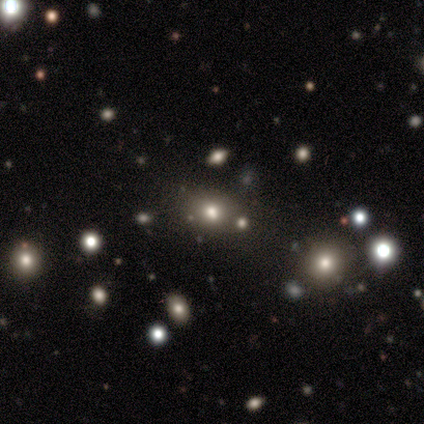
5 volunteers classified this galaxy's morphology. Smooth or featured: star or artifact — 60% (smooth — 40%)